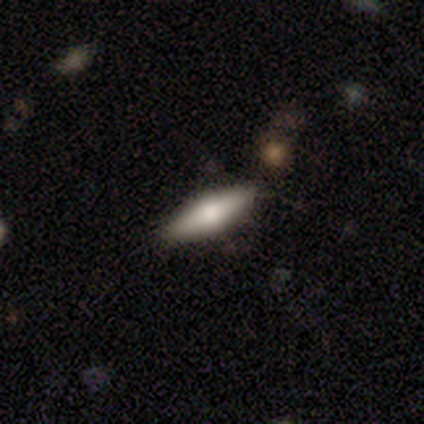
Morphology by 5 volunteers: featured or disk 60%, smooth 40%, star or artifact 0%. Down the decision tree: edge-on disk — yes (100%); edge-on bulge — rounded (100%); merging — none (100%).